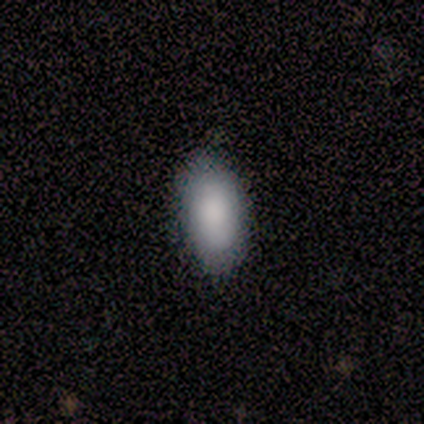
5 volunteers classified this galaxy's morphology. This is clearly a smooth galaxy (100%). How rounded: clearly in between (100%). Merging: clearly none (80%).